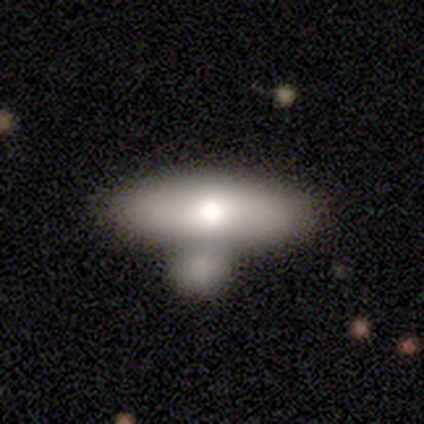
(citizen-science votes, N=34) Smooth or featured: smooth — 68% (featured or disk — 29%)
How rounded: in between — 61% (cigar-shaped — 30%)
Merging: merger — 73%